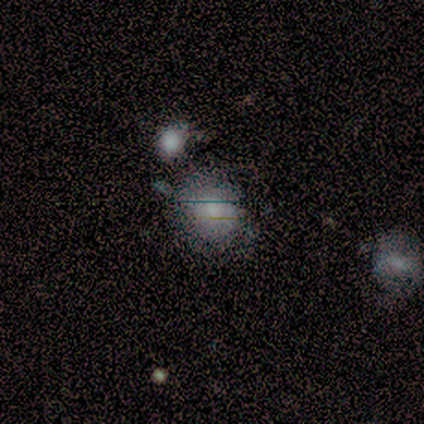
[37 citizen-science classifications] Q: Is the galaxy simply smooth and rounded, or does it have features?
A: smooth — 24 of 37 (65%).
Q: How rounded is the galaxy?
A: round — 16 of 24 (67%).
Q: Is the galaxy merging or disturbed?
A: none — 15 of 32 (47%).